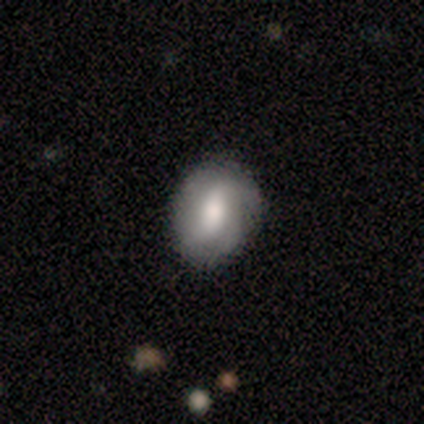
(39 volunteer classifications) Morphology: type=featured or disk (64%); edge-on=no (100%); bar=weak (44%); spiral arms=yes (68%); winding=loose (47%); arm count=2 (59%); bulge=large (48%); merging=none (68%).